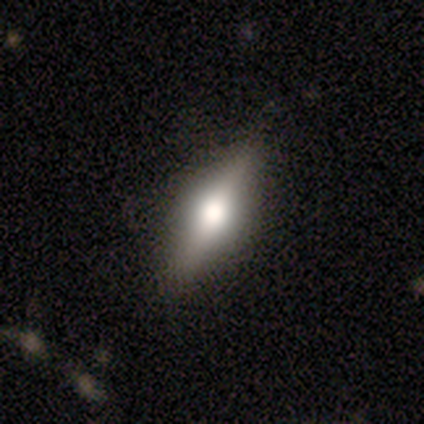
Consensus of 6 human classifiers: smooth-or-featured: featured or disk: 83% | smooth: 17% | star or artifact: 0%
  disk-edge-on: yes: 100% | no: 0%
    edge-on-bulge: rounded: 100% | boxy: 0% | none: 0%
  merging: none: 83% | minor disturbance: 17% | major disturbance: 0% | merger: 0%